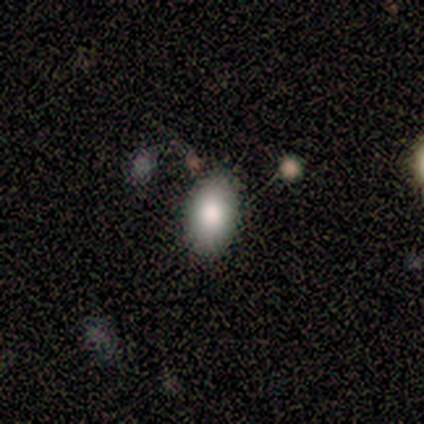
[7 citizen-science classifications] Volunteers were most divided on "how rounded": in between: 67%, round: 33%, cigar-shaped: 0%. More confident: smooth or featured — smooth (86%); merging — none (71%).